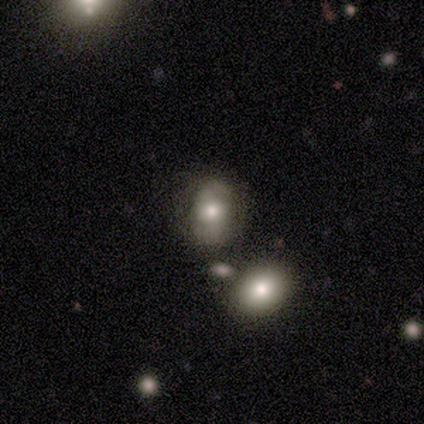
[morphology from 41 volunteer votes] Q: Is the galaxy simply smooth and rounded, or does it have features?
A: smooth — 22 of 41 (54%).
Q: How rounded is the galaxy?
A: in between — 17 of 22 (77%).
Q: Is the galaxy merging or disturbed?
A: none — 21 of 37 (57%).